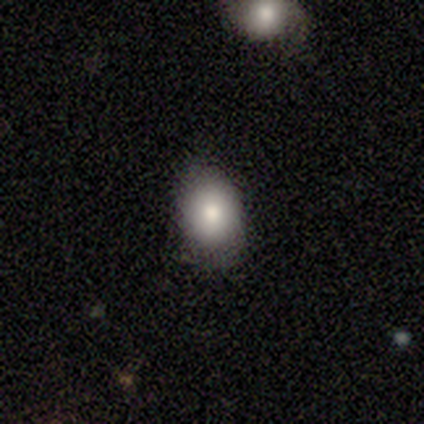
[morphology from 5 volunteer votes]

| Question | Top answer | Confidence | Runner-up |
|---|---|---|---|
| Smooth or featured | smooth | 60% | featured or disk (40%) |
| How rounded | round | 100% | — |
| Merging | none | 80% | minor disturbance (20%) |